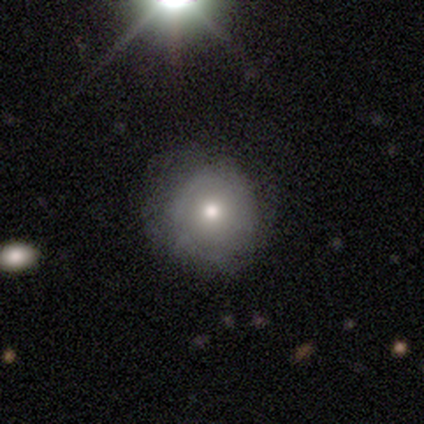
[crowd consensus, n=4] smooth_or_featured: smooth (p=0.50) [tied with: featured or disk p=0.50]
how_rounded: round (p=1.00)
merging: none (p=0.75) [alt: minor disturbance p=0.25]